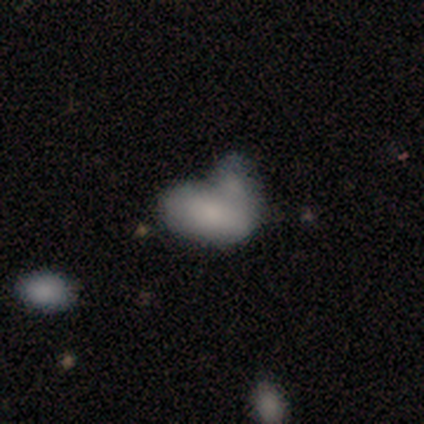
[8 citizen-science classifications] A smooth galaxy with no disk features (100%) that is in between round and cigar-shaped (100%).

Vote fractions:
- Smooth or featured? smooth: 100% / featured or disk: 0% / star or artifact: 0%
- How rounded? in between: 100% / round: 0% / cigar-shaped: 0%
- Merging? major disturbance: 38% / none: 25% / merger: 25% / minor disturbance: 12%